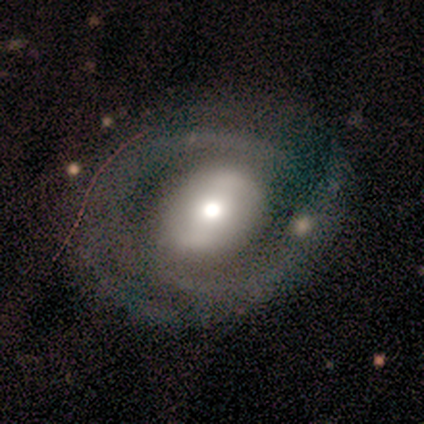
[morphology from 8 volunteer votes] Smooth or featured?
  - featured or disk: 75% *
  - smooth: 25%
  - star or artifact: 0%
Edge-on disk?
  - no: 100% *
  - yes: 0%
Bar?
  - weak: 50% * (tied)
  - no: 50% * (tied)
  - strong: 0%
Spiral arms?
  - yes: 83% *
  - no: 17%
Spiral winding?
  - tight: 80% *
  - loose: 20%
  - medium: 0%
Spiral arm count?
  - 2: 80% *
  - can't tell: 20%
  - 1: 0%
  - 3: 0%
  - 4: 0%
  - more than 4: 0%
Bulge size?
  - moderate: 50% *
  - small: 33%
  - large: 17%
  - dominant: 0%
  - none: 0%
Merging?
  - none: 75% *
  - minor disturbance: 25%
  - major disturbance: 0%
  - merger: 0%